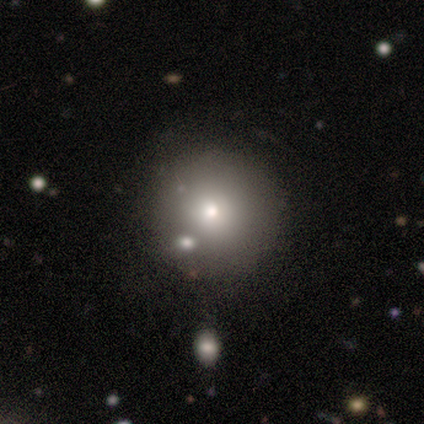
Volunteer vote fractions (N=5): Morphology: type=smooth (80%); roundness=round (100%); merging=none (100%).